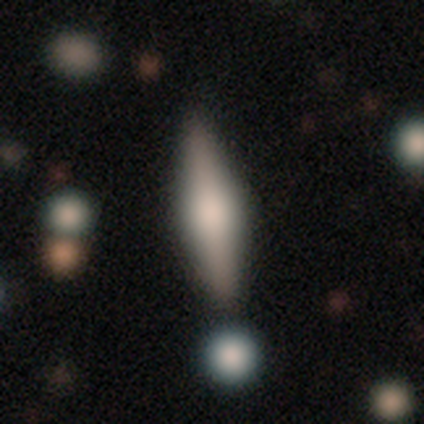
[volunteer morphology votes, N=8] Smooth or featured?
  - featured or disk: 50% *
  - smooth: 38%
  - star or artifact: 12%
Edge-on disk?
  - yes: 100% *
  - no: 0%
Edge-on bulge?
  - boxy: 50% * (tied)
  - rounded: 50% * (tied)
  - none: 0%
Merging?
  - none: 57% *
  - minor disturbance: 29%
  - merger: 14%
  - major disturbance: 0%